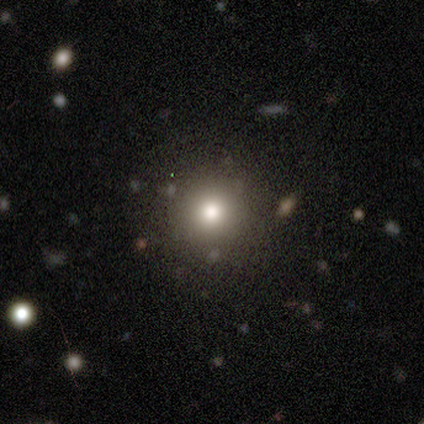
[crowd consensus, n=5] A smooth galaxy with no disk features (80%) that is round (100%).

Vote fractions:
- Smooth or featured? smooth: 80% / star or artifact: 20% / featured or disk: 0%
- How rounded? round: 100% / in between: 0% / cigar-shaped: 0%
- Merging? none: 100% / minor disturbance: 0% / major disturbance: 0% / merger: 0%